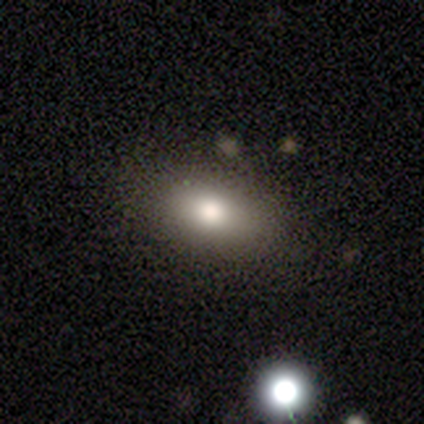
This appears to be a smooth galaxy with no disk features (88%) that is in between round and cigar-shaped (86%). Merging: none (68%).